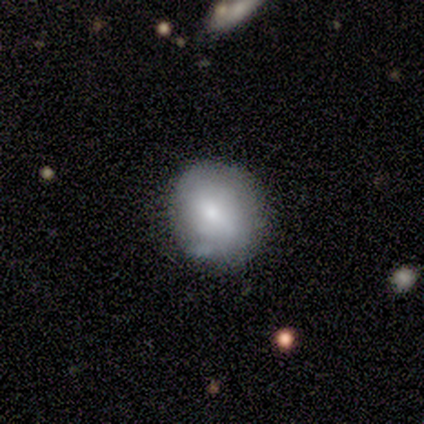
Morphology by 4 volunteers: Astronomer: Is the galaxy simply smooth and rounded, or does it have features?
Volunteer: smooth — 75%.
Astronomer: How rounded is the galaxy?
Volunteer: round — 100%.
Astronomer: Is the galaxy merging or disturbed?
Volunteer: none — 100%.